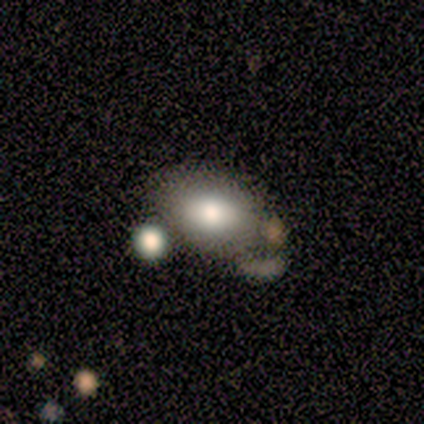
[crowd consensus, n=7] Q: Smooth or featured?
A: smooth (86%); runner-up: featured or disk (14%)
Q: How rounded?
A: in between (100%)
Q: Merging?
A: none (71%); runner-up: minor disturbance (14%)